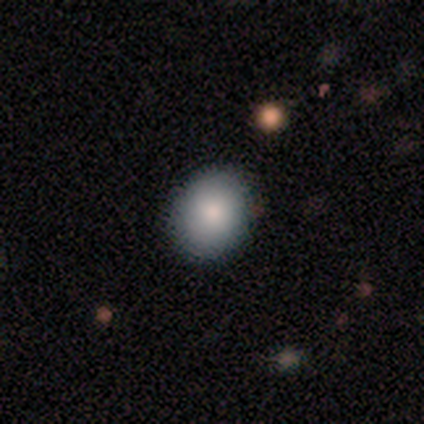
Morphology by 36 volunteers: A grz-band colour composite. It shows a smooth galaxy with no disk features (86%) that is round (52%). Merging: none (88%).